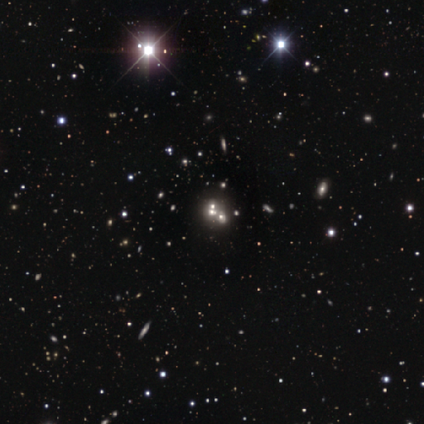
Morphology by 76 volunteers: Overall: star or artifact (57%; smooth 24%).